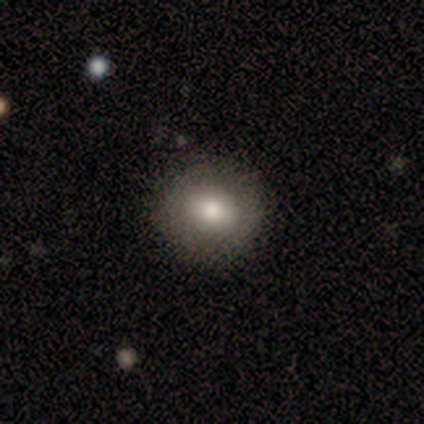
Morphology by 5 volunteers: Smooth or featured: smooth — 60% (featured or disk — 20%)
How rounded: round — 100%
Merging: none — 100%